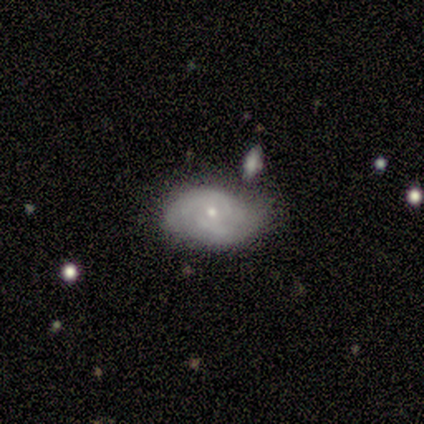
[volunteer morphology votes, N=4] Smooth or featured?
  - featured or disk: 75% *
  - smooth: 25%
  - star or artifact: 0%
Edge-on disk?
  - no: 100% *
  - yes: 0%
Bar?
  - strong: 33% * (tied)
  - weak: 33% * (tied)
  - no: 33% * (tied)
Spiral arms?
  - yes: 100% *
  - no: 0%
Spiral winding?
  - medium: 67% *
  - tight: 33%
  - loose: 0%
Spiral arm count?
  - can't tell: 67% *
  - 2: 33%
  - 1: 0%
  - 3: 0%
  - 4: 0%
  - more than 4: 0%
Bulge size?
  - small: 67% *
  - moderate: 33%
  - dominant: 0%
  - large: 0%
  - none: 0%
Merging?
  - none: 75% *
  - minor disturbance: 25%
  - major disturbance: 0%
  - merger: 0%